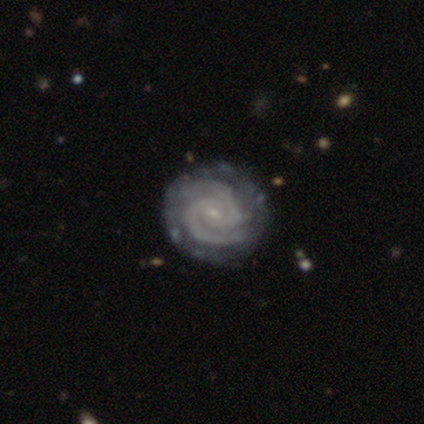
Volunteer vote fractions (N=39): Smooth or featured: featured or disk — 95% (star or artifact — 5%)
Edge-on disk: no — 100%
Bar: weak — 51% (no — 46%)
Spiral arms: yes — 100%
Spiral winding: tight — 81% (medium — 19%)
Spiral arm count: 2 — 68% (3 — 11%)
Bulge size: small — 76% (none — 14%)
Merging: none — 62% (minor disturbance — 5%)